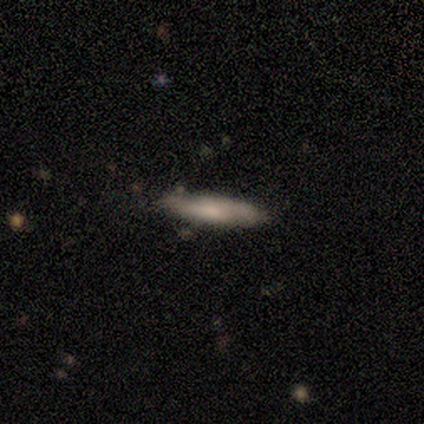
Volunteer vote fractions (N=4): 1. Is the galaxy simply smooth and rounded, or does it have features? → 75% smooth, 25% featured or disk, 0% star or artifact.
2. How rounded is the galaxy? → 100% cigar-shaped, 0% round, 0% in between.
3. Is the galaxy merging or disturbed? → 100% none, 0% minor disturbance, 0% major disturbance, 0% merger.